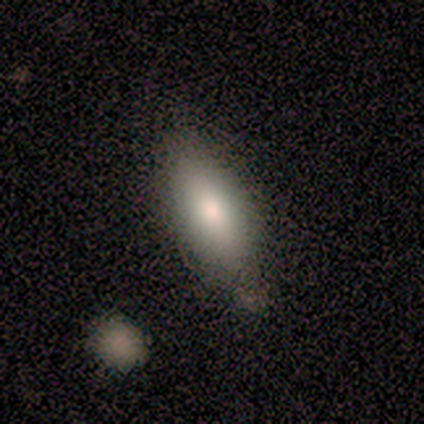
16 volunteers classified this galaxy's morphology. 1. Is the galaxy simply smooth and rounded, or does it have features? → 81% smooth, 19% featured or disk, 0% star or artifact.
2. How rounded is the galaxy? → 77% in between, 23% cigar-shaped, 0% round.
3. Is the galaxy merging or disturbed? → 75% none, 25% minor disturbance, 0% major disturbance, 0% merger.